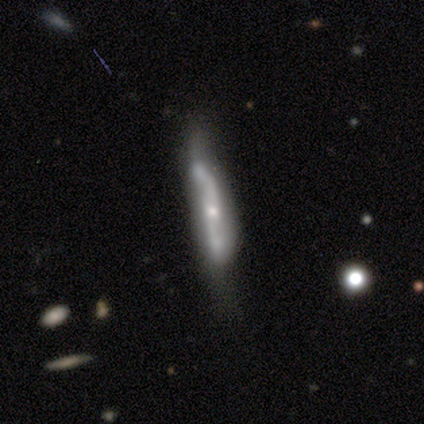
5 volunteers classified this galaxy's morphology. featured or disk 80%, smooth 20%, star or artifact 0%. Down the decision tree: edge-on disk — yes (50%, tied with no); edge-on bulge — boxy (100%); merging — none (40%, tied with minor disturbance).